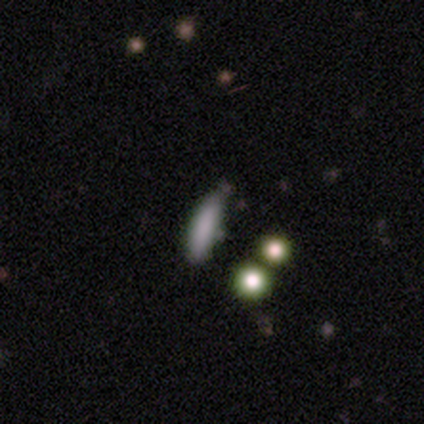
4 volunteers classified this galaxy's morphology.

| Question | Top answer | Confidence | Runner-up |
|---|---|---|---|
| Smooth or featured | smooth | 100% | — |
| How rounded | cigar-shaped | 75% | in between (25%) |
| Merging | none | 50% | tied: minor disturbance (50%) |